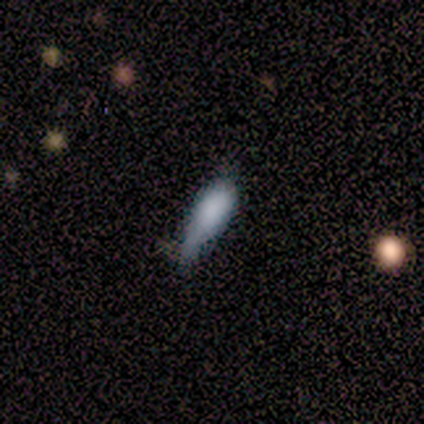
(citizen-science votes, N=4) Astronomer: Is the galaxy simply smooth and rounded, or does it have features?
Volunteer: smooth — 75%.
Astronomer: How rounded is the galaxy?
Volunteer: in between — 100%.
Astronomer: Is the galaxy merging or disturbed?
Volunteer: minor disturbance — 75%.